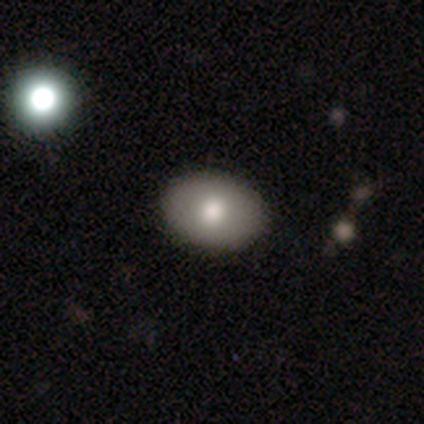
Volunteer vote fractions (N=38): Overall: smooth (82%). How rounded: in between (84%). Merging: none (47%; merger 13%).